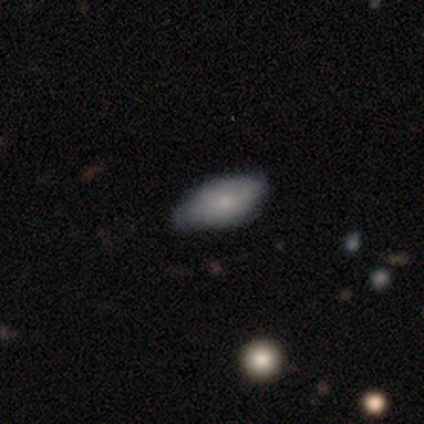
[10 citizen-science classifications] Q: Smooth or featured?
A: smooth (80%); runner-up: featured or disk (20%)
Q: How rounded?
A: in between (100%)
Q: Merging?
A: none (50%); tied with: minor disturbance (50%)